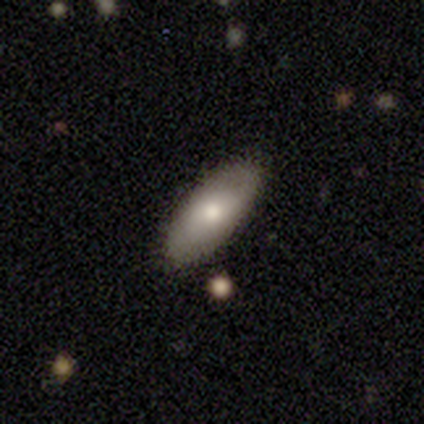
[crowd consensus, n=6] Smooth or featured? 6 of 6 (100%) said smooth. How rounded? 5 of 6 (83%) said in between. Merging? 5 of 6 (83%) said none.